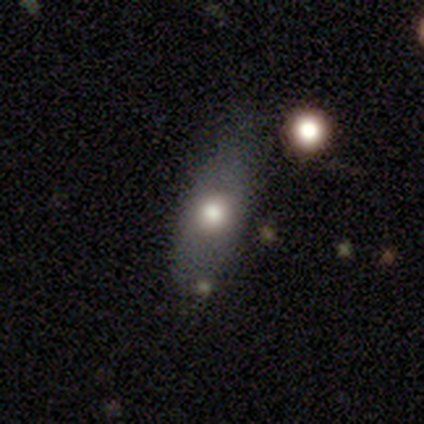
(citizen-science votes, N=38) A smooth galaxy with no disk features (66%) that is in between round and cigar-shaped (76%).

Vote fractions:
- Smooth or featured? smooth: 66% / featured or disk: 26% / star or artifact: 8%
- How rounded? in between: 76% / round: 12% / cigar-shaped: 12%
- Merging? none: 57% / minor disturbance: 29% / major disturbance: 9% / merger: 6%